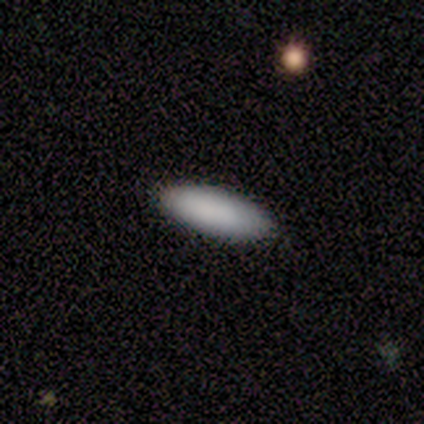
smooth-or-featured: smooth: 100% | featured or disk: 0% | star or artifact: 0%
  how-rounded: cigar-shaped: 60% | in between: 40% | round: 0%
  merging: none: 100% | minor disturbance: 0% | major disturbance: 0% | merger: 0%